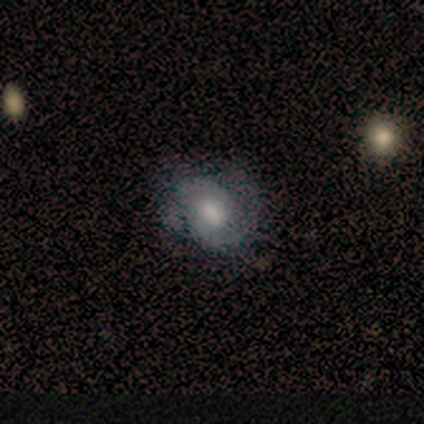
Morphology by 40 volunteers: type=featured or disk (52%); edge-on=no (95%); bar=weak (45%, tied with no); spiral arms=yes (90%); winding=tight (56%); arm count=2 (78%); bulge=moderate (45%); merging=none (71%).